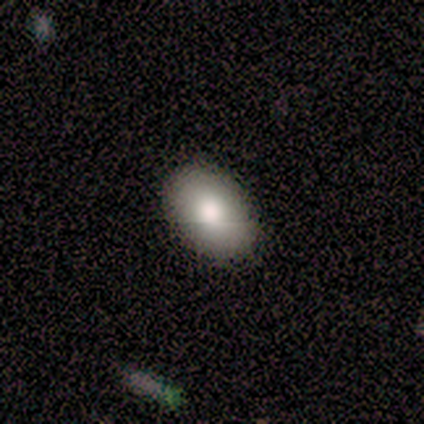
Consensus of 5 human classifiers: Smooth or featured? 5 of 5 (100%) said smooth. How rounded? 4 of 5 (80%) said in between. Merging? 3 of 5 (60%) said none.